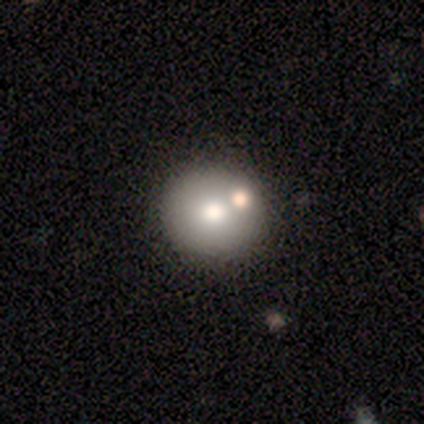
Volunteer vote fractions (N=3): A smooth galaxy with no disk features (67%) that is round (100%). Merging: none (100%).